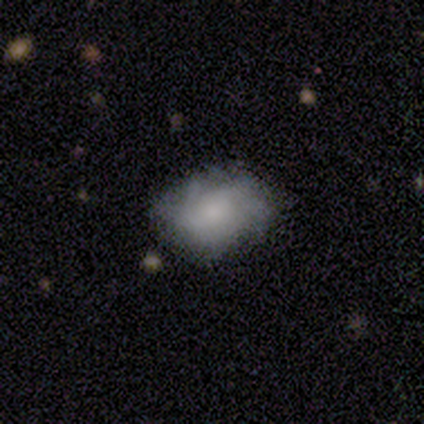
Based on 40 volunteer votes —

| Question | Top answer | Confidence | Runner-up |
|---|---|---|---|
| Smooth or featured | smooth | 48% | featured or disk (38%) |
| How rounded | in between | 89% | round (11%) |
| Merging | none | 71% | minor disturbance (18%) |